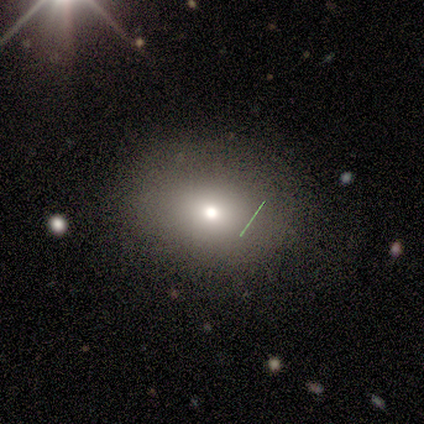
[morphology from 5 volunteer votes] A smooth galaxy with no disk features (80%) that is round (50%, tied with in between). Merging: none (80%).